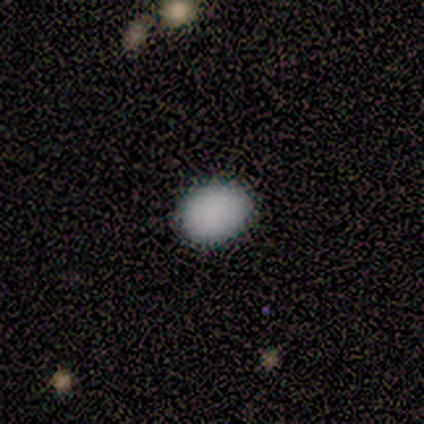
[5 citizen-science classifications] This appears to be a smooth galaxy with no disk features (100%) that is round (60%). Merging: none (100%).